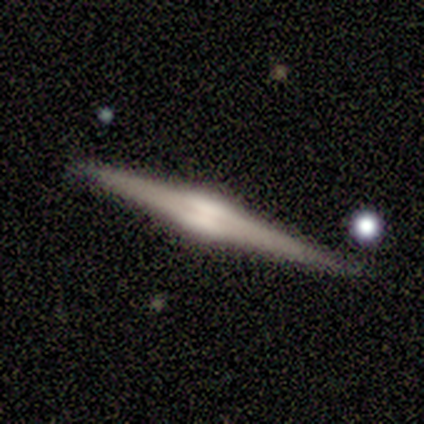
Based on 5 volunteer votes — Q: Smooth or featured?
A: featured or disk (100%)
Q: Edge-on disk?
A: yes (100%)
Q: Edge-on bulge?
A: rounded (100%)
Q: Merging?
A: none (80%); runner-up: minor disturbance (20%)